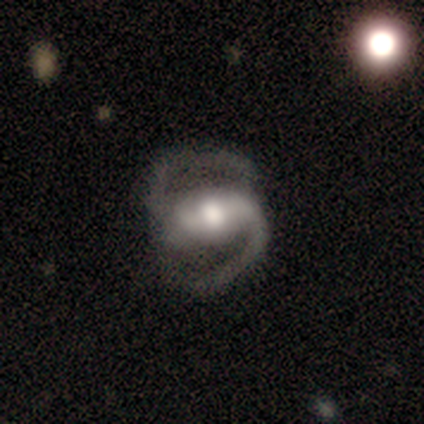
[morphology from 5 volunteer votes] type=featured or disk (100%); edge-on=no (80%); bar=strong (75%); spiral arms=yes (100%); winding=medium (75%); arm count=2 (100%); bulge=moderate (50%); merging=none (80%).